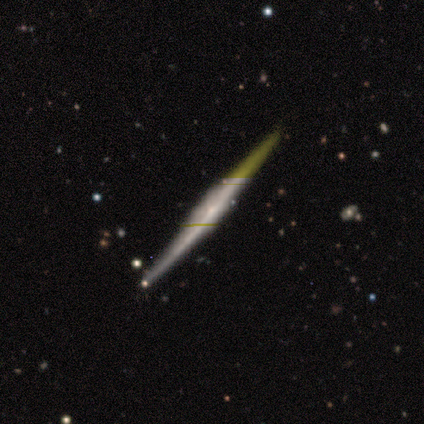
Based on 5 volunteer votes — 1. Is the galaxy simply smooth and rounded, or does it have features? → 80% featured or disk, 20% star or artifact, 0% smooth.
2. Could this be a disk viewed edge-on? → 75% yes, 25% no.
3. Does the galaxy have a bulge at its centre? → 67% none, 33% boxy, 0% rounded.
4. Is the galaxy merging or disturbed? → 75% none, 25% minor disturbance, 0% major disturbance, 0% merger.